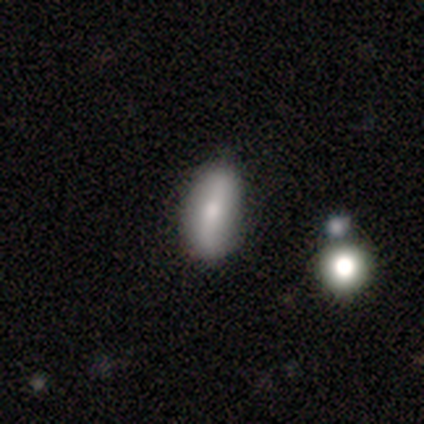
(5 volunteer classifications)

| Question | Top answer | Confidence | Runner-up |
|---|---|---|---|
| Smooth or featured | smooth | 60% | featured or disk (20%) |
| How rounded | in between | 67% | cigar-shaped (33%) |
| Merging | none | 100% | — |